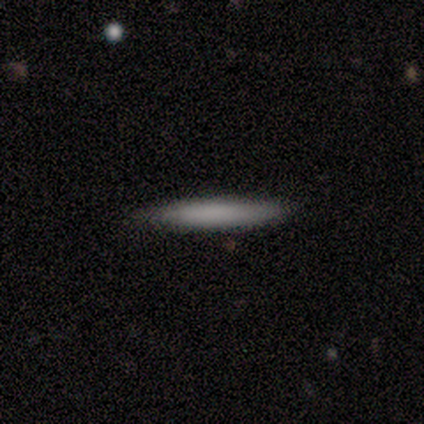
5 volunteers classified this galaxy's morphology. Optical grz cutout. It shows a smooth galaxy with no disk features (80%) that is cigar-shaped (100%). Merging: none (100%).